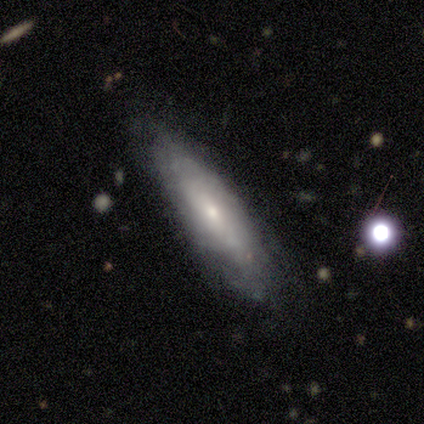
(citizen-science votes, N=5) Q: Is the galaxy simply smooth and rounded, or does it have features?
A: smooth — 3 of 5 (60%).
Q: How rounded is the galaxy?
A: cigar-shaped — 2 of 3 (67%).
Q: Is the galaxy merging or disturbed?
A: none — 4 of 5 (80%).